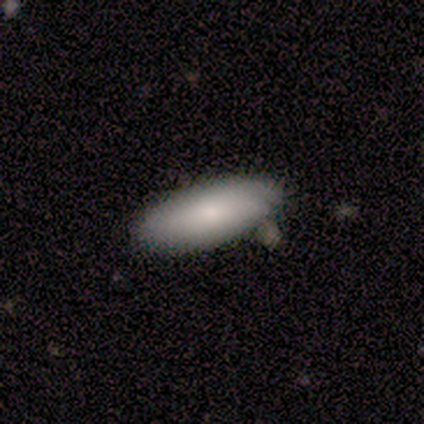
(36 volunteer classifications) A smooth galaxy with no disk features (67%) that is in between round and cigar-shaped (92%). Merging: none (82%).